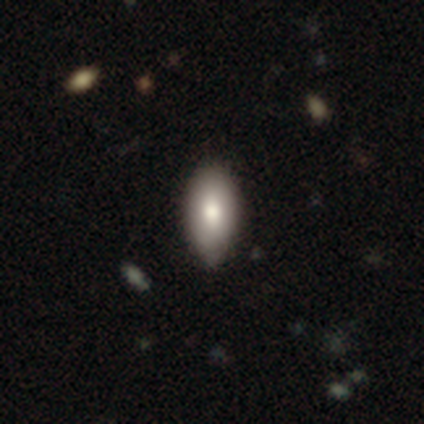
Smooth or featured: smooth — 79% (featured or disk — 15%)
How rounded: in between — 87% (cigar-shaped — 13%)
Merging: none — 73% (minor disturbance — 24%)